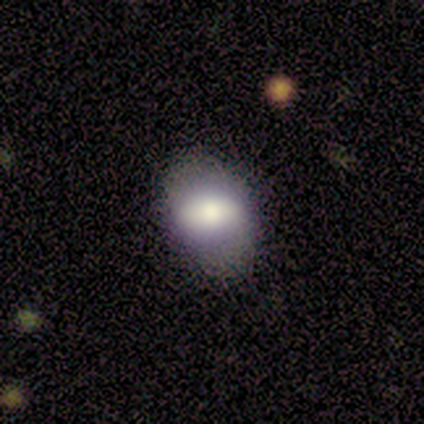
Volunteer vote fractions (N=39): Overall: smooth (67%). How rounded: in between (77%). Merging: none (74%).